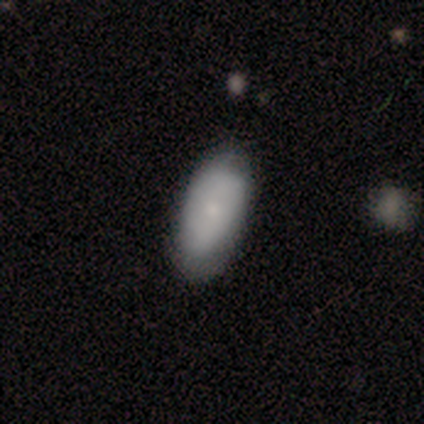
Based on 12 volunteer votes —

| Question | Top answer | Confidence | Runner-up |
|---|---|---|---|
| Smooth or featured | smooth | 83% | featured or disk (17%) |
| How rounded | in between | 100% | — |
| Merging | none | 67% | minor disturbance (25%) |